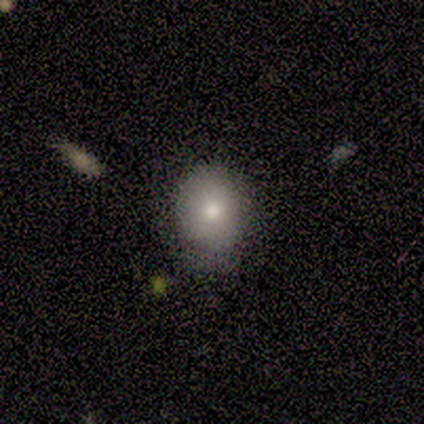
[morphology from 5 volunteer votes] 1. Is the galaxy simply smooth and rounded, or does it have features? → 100% smooth, 0% featured or disk, 0% star or artifact.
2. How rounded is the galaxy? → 60% round, 40% in between, 0% cigar-shaped.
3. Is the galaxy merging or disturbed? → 100% none, 0% minor disturbance, 0% major disturbance, 0% merger.